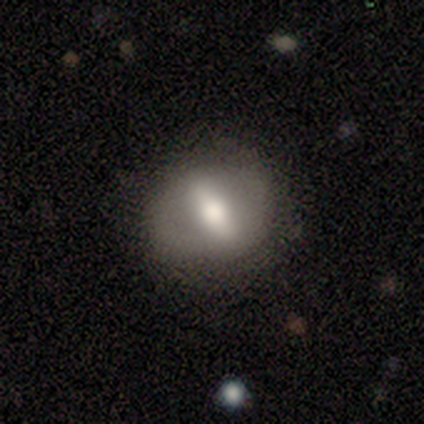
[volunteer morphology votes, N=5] Overall: smooth (60%; featured or disk 40%). How rounded: in between (67%; round 33%). Merging: none (60%; minor disturbance 40%).